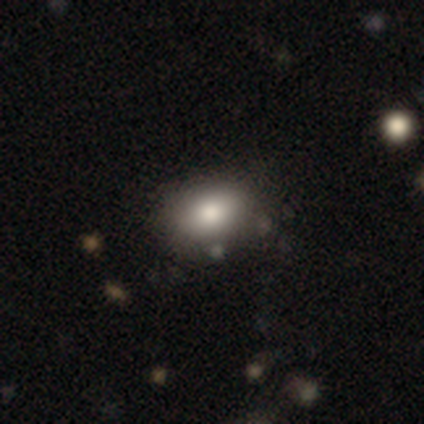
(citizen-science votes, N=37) Overall: smooth (86%). How rounded: in between (81%). Merging: none (76%).